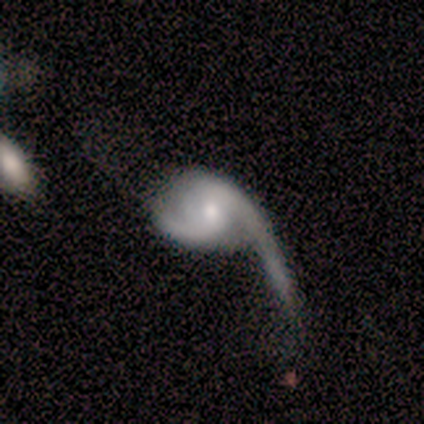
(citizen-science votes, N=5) Morphology: type=featured or disk (100%); edge-on=no (100%); bar=no (60%); spiral arms=yes (100%); winding=loose (80%); arm count=2 (60%); bulge=moderate (40%, tied with small); merging=major disturbance (60%).